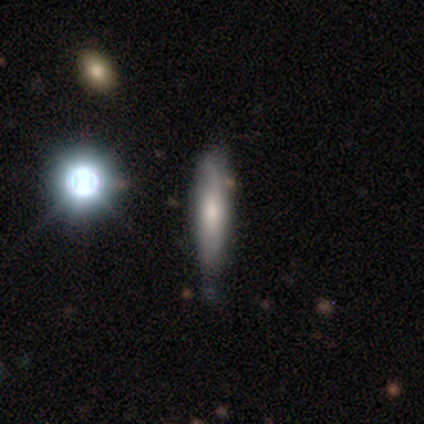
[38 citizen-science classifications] smooth_or_featured: smooth (p=0.45) [alt: featured or disk p=0.39]
how_rounded: cigar-shaped (p=0.76) [alt: in between p=0.18]
merging: none (p=0.62) [alt: minor disturbance p=0.34]